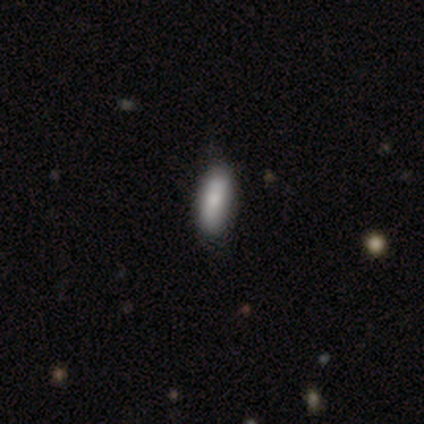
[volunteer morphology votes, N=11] type=smooth (82%); roundness=in between (78%); merging=none (80%).